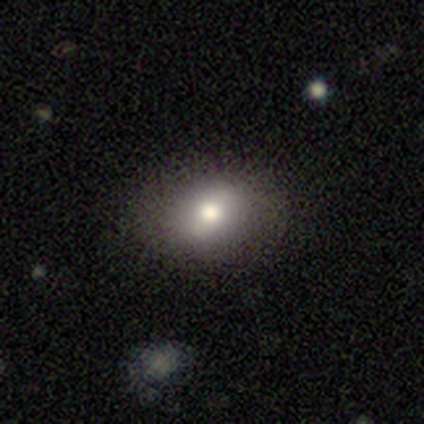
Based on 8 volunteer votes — Volunteers were most divided on "how rounded": in between: 67%, round: 33%, cigar-shaped: 0%. More confident: smooth or featured — smooth (75%); merging — none (75%).